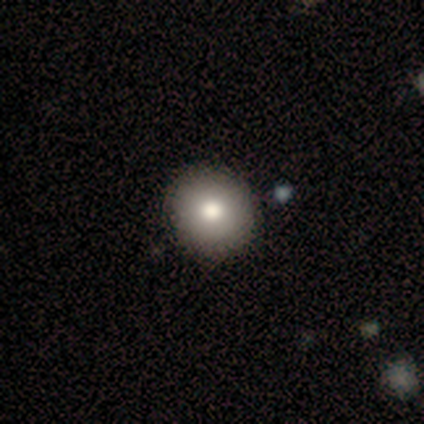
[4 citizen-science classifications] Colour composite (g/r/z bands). It shows a smooth galaxy with no disk features (75%) that is round (100%). Merging: none (75%).